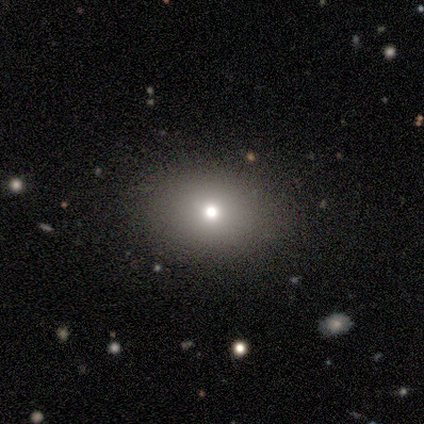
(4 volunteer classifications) Smooth or featured? smooth (100%)
How rounded? round (75%)
Merging? none (100%)